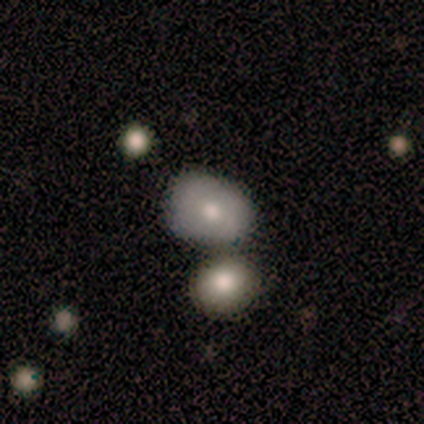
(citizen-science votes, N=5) Overall: smooth (40%, tied with star or artifact). How rounded: round (50%, tied with in between). Merging: none (67%; merger 33%).